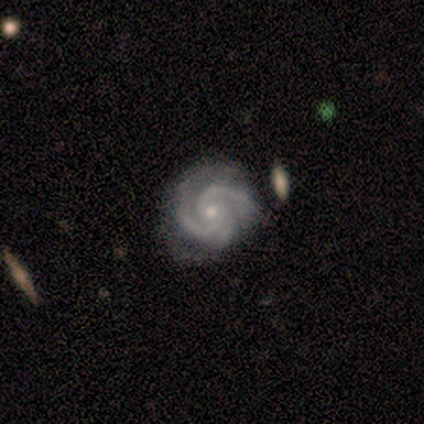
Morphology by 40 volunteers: Overall: featured or disk (92%). Edge-on disk: no (100%). Bar: no (73%). Spiral arms: yes (100%). Spiral arm count: 2 (59%; 3 38%). Spiral winding: tight (62%; medium 32%). Bulge size: small (57%; moderate 41%). Merging: none (57%).